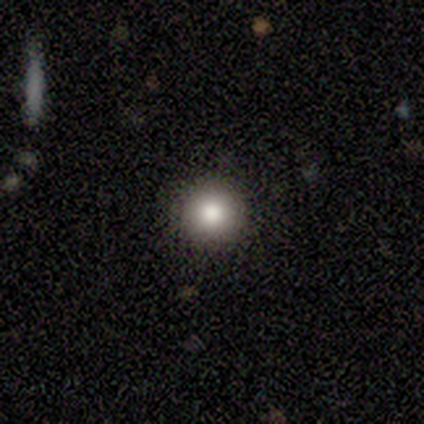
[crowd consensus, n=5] Smooth or featured? 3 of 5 (60%) said smooth. How rounded? 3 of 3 (100%) said round. Merging? 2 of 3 (67%) said none.